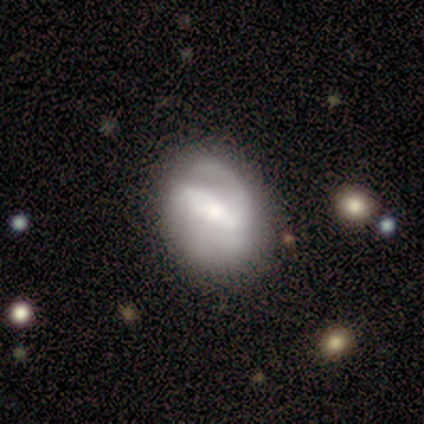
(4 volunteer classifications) Smooth or featured: featured or disk — 75% (smooth — 25%)
Edge-on disk: no — 100%
Bar: no — 67% (strong — 33%)
Spiral arms: yes — 100%
Spiral winding: tight — 33% (tied with medium — 33%; loose — 33%)
Spiral arm count: 1 — 67% (2 — 33%)
Bulge size: large — 67% (small — 33%)
Merging: minor disturbance — 50% (none — 25%)